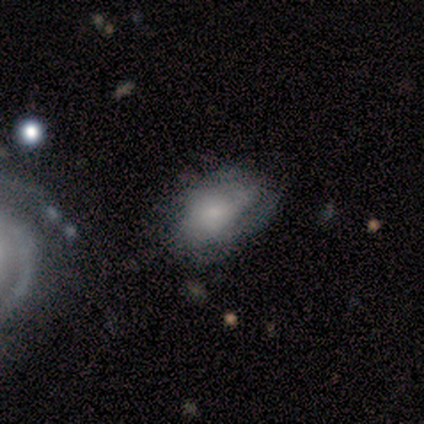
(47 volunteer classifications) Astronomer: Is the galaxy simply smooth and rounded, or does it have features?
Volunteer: smooth — 49% (runner-up: featured or disk, 47%).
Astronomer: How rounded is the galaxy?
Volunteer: in between — 83%.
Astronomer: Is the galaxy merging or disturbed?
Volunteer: minor disturbance — 44% (runner-up: none, 33%).